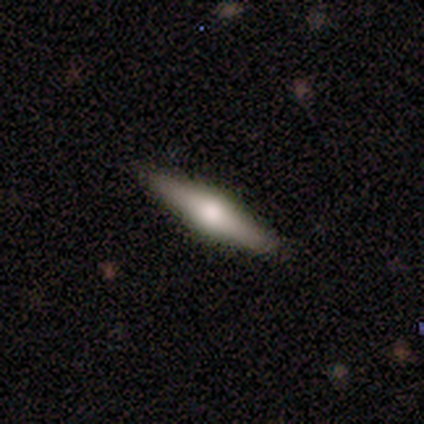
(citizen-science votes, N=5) This appears to be a featured or disk galaxy (80%) viewed edge-on (100%) with a rounded central bulge (75%). Merging: none (60%).